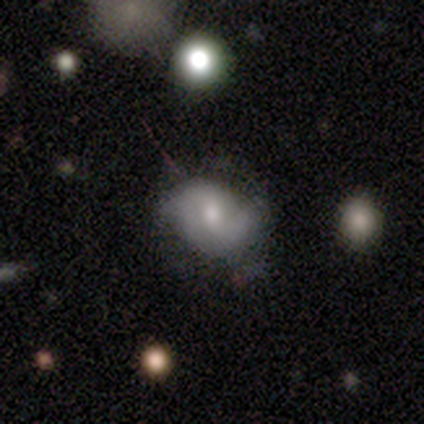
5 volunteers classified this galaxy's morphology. Overall: featured or disk (60%; smooth 40%). Edge-on disk: no (100%). Bar: strong (33%, tied with weak and no). Spiral arms: yes (100%). Spiral arm count: 2 (67%; can't tell 33%). Spiral winding: medium (67%; tight 33%). Bulge size: small (67%; moderate 33%). Merging: minor disturbance (60%; none 20%).